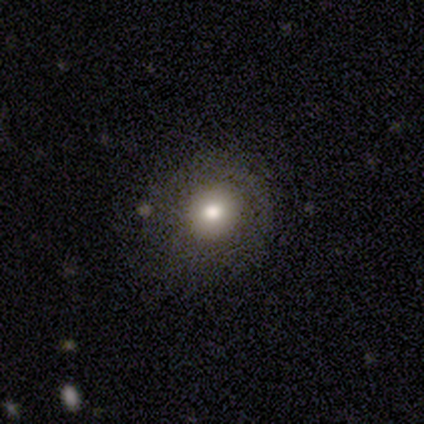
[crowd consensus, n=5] smooth 60%, star or artifact 40%, featured or disk 0%. Down the decision tree: how rounded — round (100%); merging — none (100%).